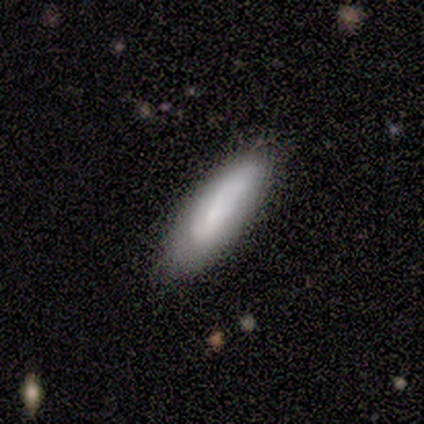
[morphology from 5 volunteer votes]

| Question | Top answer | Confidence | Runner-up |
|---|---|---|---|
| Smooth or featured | featured or disk | 60% | smooth (40%) |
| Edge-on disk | no | 67% | yes (33%) |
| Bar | strong | 50% | tied: weak (50%) |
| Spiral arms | yes | 100% | — |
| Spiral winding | tight | 50% | tied: medium (50%) |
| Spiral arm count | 2 | 100% | — |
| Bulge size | moderate | 50% | tied: small (50%) |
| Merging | none | 80% | minor disturbance (20%) |